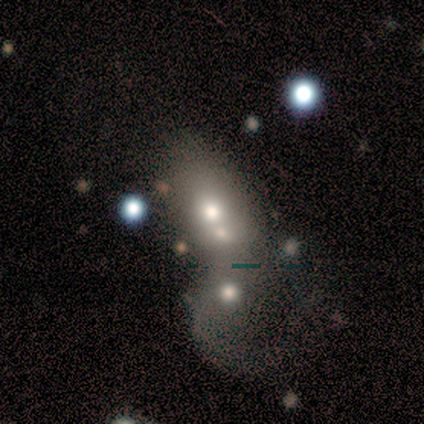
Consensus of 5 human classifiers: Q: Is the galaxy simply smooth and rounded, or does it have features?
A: featured or disk — 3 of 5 (60%).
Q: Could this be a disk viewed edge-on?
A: no — 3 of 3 (100%).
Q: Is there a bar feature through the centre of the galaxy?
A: no — 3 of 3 (100%).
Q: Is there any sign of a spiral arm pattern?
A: no — 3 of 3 (100%).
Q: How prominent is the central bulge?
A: moderate — 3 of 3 (100%).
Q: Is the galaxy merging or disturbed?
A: merger — 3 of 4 (75%).